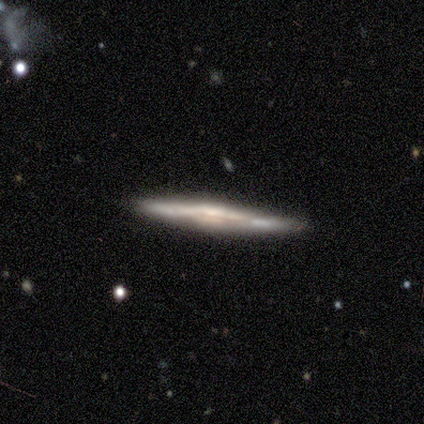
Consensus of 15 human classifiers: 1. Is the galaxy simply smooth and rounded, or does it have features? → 80% featured or disk, 20% smooth, 0% star or artifact.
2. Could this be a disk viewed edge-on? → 100% yes, 0% no.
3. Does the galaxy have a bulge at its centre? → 50% none, 33% rounded, 17% boxy.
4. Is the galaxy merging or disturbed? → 93% none, 7% minor disturbance, 0% major disturbance, 0% merger.